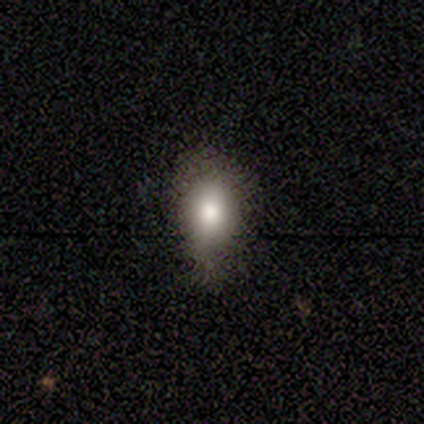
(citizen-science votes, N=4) Smooth or featured? smooth (100%)
How rounded? in between (75%)
Merging? none (50%)